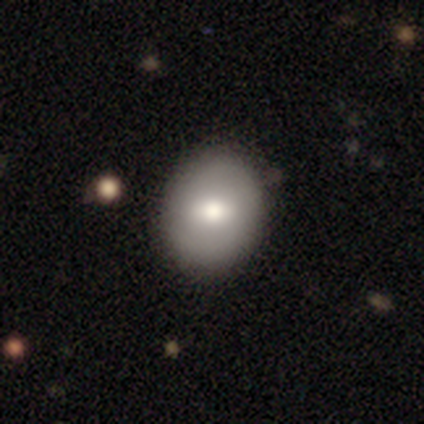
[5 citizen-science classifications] Smooth or featured?
  - smooth: 80% *
  - featured or disk: 20%
  - star or artifact: 0%
How rounded?
  - round: 100% *
  - in between: 0%
  - cigar-shaped: 0%
Merging?
  - none: 80% *
  - minor disturbance: 20%
  - major disturbance: 0%
  - merger: 0%